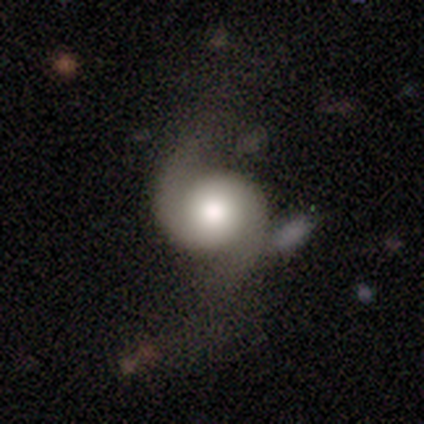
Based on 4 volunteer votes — smooth 50% (tied), featured or disk 50% (tied), star or artifact 0%. Down the decision tree: how rounded — round (100%); merging — minor disturbance (50%).